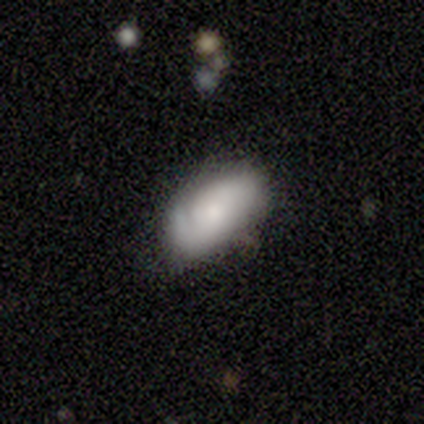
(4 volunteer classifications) Q: Smooth or featured?
A: featured or disk (75%); runner-up: smooth (25%)
Q: Edge-on disk?
A: no (100%)
Q: Bar?
A: no (100%)
Q: Spiral arms?
A: yes (100%)
Q: Spiral winding?
A: tight (67%); runner-up: loose (33%)
Q: Spiral arm count?
A: 1 (33%); tied with: 2 (33%); 3 (33%)
Q: Bulge size?
A: small (67%); runner-up: moderate (33%)
Q: Merging?
A: none (50%); runner-up: minor disturbance (25%)